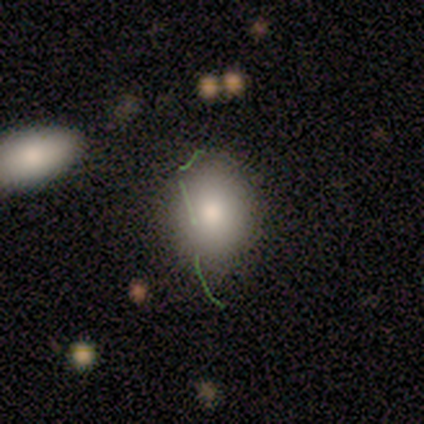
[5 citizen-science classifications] Smooth or featured? 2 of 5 (40%, tied with star or artifact) said smooth. How rounded? 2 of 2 (100%) said in between. Merging? 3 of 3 (100%) said none.